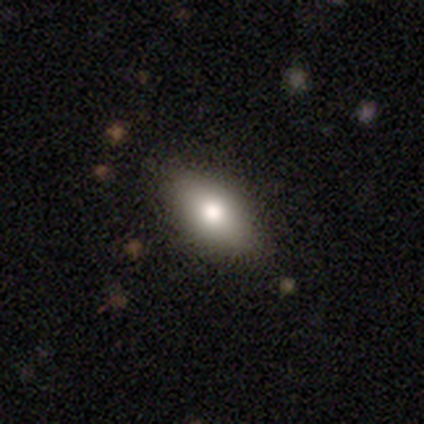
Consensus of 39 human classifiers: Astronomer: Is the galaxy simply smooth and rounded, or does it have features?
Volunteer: smooth — 67%.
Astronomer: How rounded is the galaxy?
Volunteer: in between — 85%.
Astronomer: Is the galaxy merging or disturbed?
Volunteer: none — 81%.